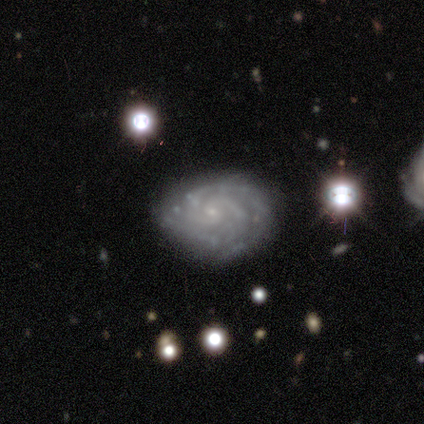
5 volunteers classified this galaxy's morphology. smooth-or-featured: featured or disk: 80% | smooth: 20% | star or artifact: 0%
  disk-edge-on: no: 75% | yes: 25%
    bar: no: 100% | strong: 0% | weak: 0%
    has-spiral-arms: yes: 100% | no: 0%
      spiral-winding: tight: 67% | medium: 33% | loose: 0%
      spiral-arm-count: 2: 67% | 3: 33% | 1: 0% | 4: 0% | more than 4: 0% | can't tell: 0%
    bulge-size: small: 100% | dominant: 0% | large: 0% | moderate: 0% | none: 0%
  merging: none: 100% | minor disturbance: 0% | major disturbance: 0% | merger: 0%